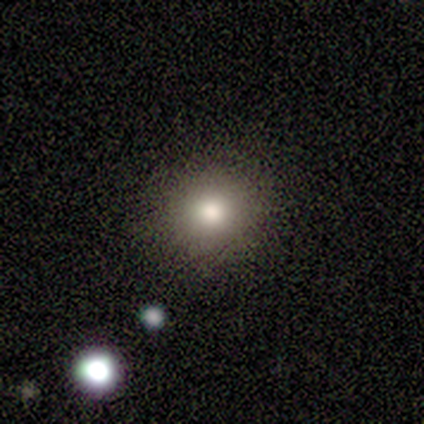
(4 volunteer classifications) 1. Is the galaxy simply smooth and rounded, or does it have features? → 75% smooth, 25% star or artifact, 0% featured or disk.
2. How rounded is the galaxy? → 100% round, 0% in between, 0% cigar-shaped.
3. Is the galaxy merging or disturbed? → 100% none, 0% minor disturbance, 0% major disturbance, 0% merger.